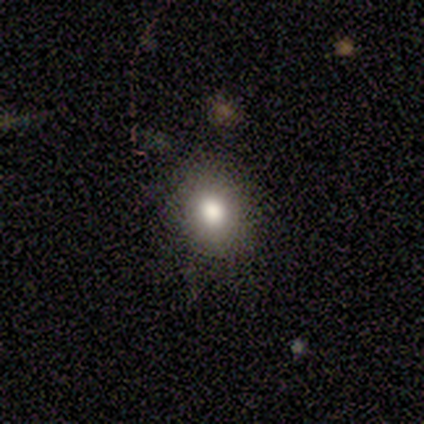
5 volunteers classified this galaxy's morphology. Smooth or featured? 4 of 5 (80%) said smooth. How rounded? 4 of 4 (100%) said in between. Merging? 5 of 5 (100%) said none.